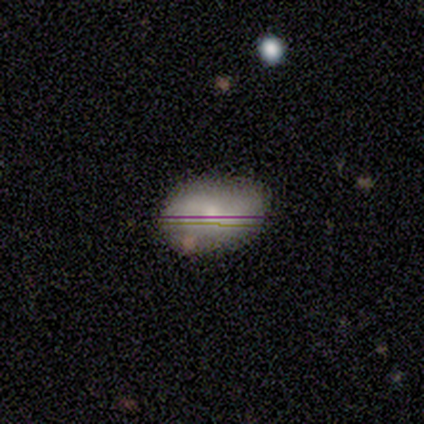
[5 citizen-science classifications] smooth 60%, star or artifact 40%, featured or disk 0%. Down the decision tree: how rounded — in between (100%); merging — none (100%).